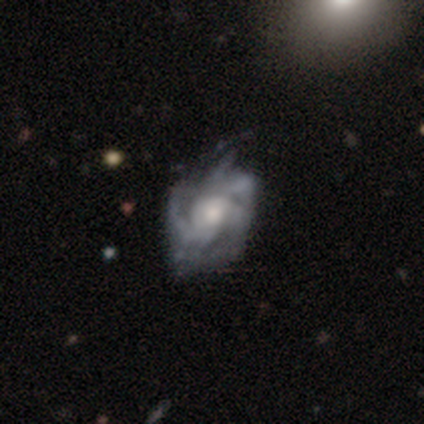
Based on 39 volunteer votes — Overall: featured or disk (92%). Edge-on disk: no (97%). Bar: no (69%). Spiral arms: yes (97%). Spiral arm count: 3 (29%, tied with can't tell). Spiral winding: medium (59%; tight 29%). Bulge size: moderate (60%). Merging: none (35%; minor disturbance 22%).